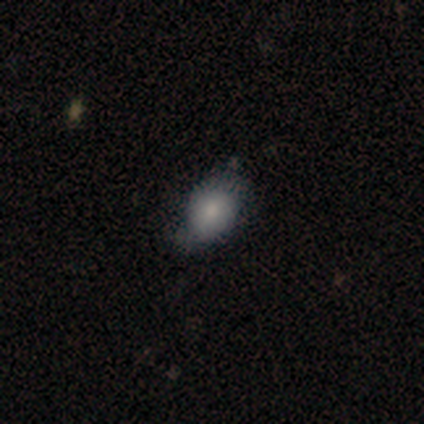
A smooth galaxy with no disk features (50%, tied with featured or disk) that is round (100%). Merging: minor disturbance (50%, tied with major disturbance).